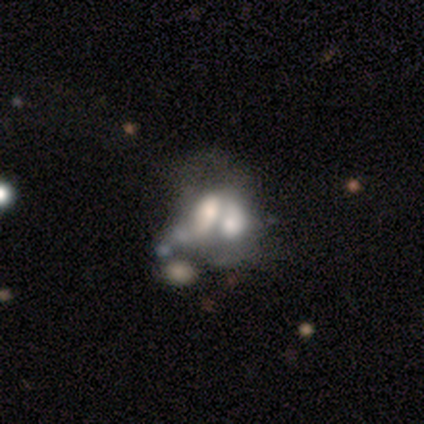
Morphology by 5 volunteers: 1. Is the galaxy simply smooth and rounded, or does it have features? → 60% smooth, 20% featured or disk, 20% star or artifact.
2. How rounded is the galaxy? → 100% in between, 0% round, 0% cigar-shaped.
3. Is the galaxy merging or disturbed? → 100% merger, 0% none, 0% minor disturbance, 0% major disturbance.